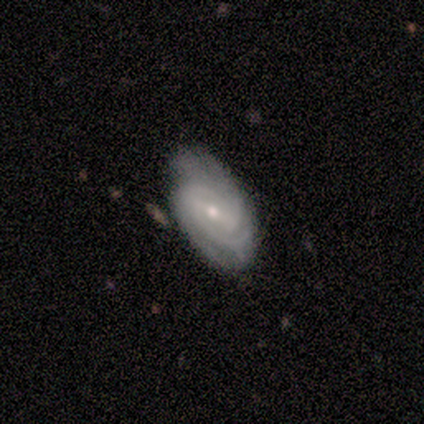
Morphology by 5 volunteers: Smooth or featured? 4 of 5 (80%) said featured or disk. Edge-on disk? 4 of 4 (100%) said no. Bar? 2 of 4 (50%) said weak. Spiral arms? 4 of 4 (100%) said yes. Spiral winding? 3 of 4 (75%) said tight. Spiral arm count? 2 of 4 (50%) said can't tell. Bulge size? 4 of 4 (100%) said small. Merging? 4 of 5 (80%) said none.